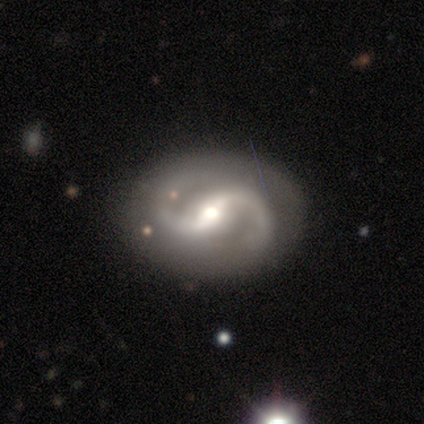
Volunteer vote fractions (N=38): Smooth or featured: featured or disk — 95% (smooth — 5%)
Edge-on disk: no — 97% (yes — 3%)
Bar: weak — 46% (strong — 34%)
Spiral arms: yes — 94% (no — 6%)
Spiral winding: medium — 67% (loose — 27%)
Spiral arm count: 2 — 85% (1 — 12%)
Bulge size: moderate — 51% (small — 31%)
Merging: none — 79% (minor disturbance — 16%)